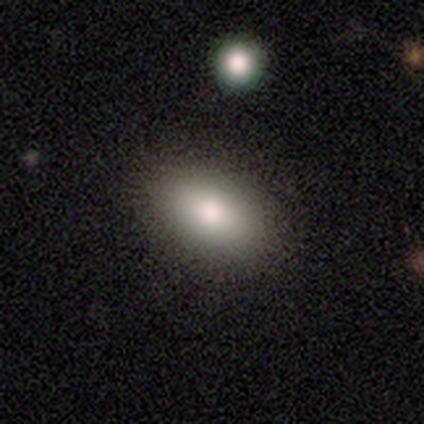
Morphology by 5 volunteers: Overall: smooth (80%). How rounded: in between (100%). Merging: none (100%).